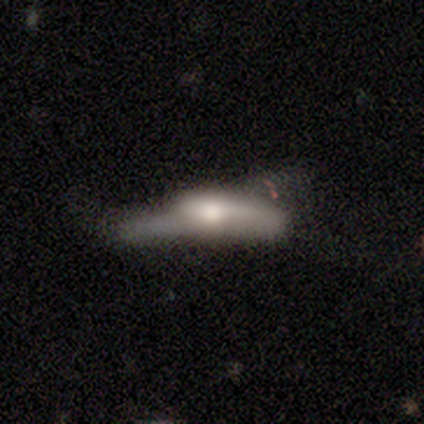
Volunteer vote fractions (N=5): smooth-or-featured: featured or disk: 80% | smooth: 20% | star or artifact: 0%
  disk-edge-on: no: 75% | yes: 25%
    bar: strong: 33% (tied) | weak: 33% (tied) | no: 33% (tied)
    has-spiral-arms: no: 67% | yes: 33%
    bulge-size: moderate: 100% | dominant: 0% | large: 0% | small: 0% | none: 0%
  merging: major disturbance: 60% | minor disturbance: 40% | none: 0% | merger: 0%